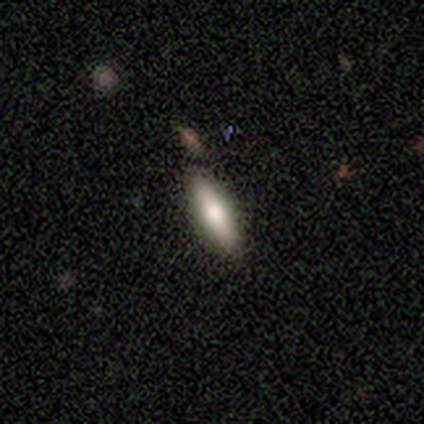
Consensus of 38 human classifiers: smooth_or_featured: smooth (p=0.61) [alt: featured or disk p=0.32]
how_rounded: cigar-shaped (p=0.52) [alt: in between p=0.48]
merging: none (p=0.89) [alt: minor disturbance p=0.11]